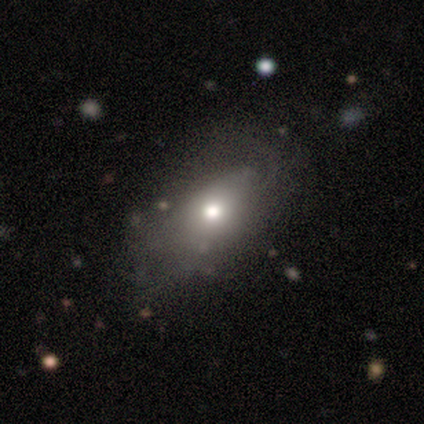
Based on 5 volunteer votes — A smooth galaxy with no disk features (60%) that is in between round and cigar-shaped (100%). Merging: none (40%, tied with major disturbance).